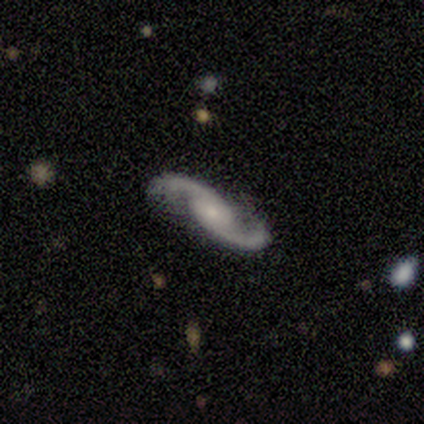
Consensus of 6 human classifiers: This appears to be a featured or disk galaxy (83%) with a weak bar (75%), 2 (100%) loose (75%) spiral arms (100%) and a moderate central bulge (50%, tied with small). Merging: none (60%).